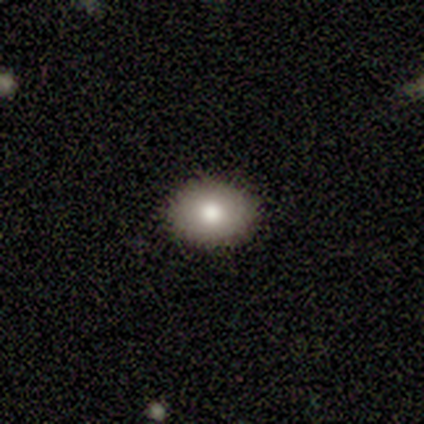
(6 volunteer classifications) Smooth or featured? 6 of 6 (100%) said smooth. How rounded? 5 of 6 (83%) said in between. Merging? 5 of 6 (83%) said none.